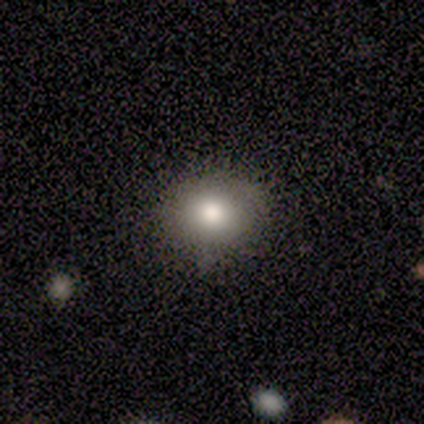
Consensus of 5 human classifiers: Morphology: type=smooth (100%); roundness=round (60%); merging=none (100%).